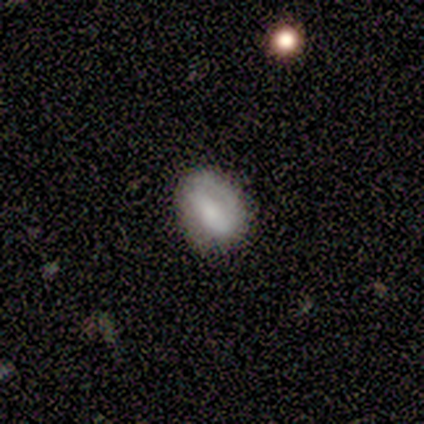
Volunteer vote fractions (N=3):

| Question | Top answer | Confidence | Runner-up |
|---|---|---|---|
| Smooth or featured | smooth | 67% | featured or disk (33%) |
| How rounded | in between | 100% | — |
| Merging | none | 100% | — |